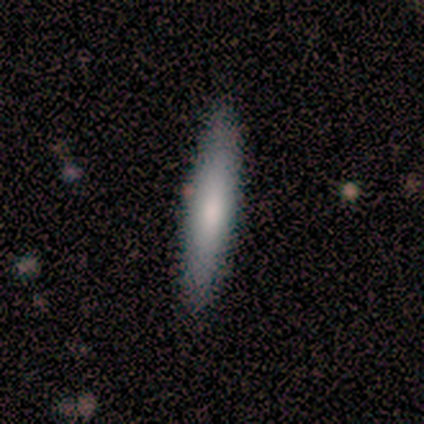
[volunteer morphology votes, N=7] type=smooth (86%); roundness=cigar-shaped (100%); merging=none (86%).